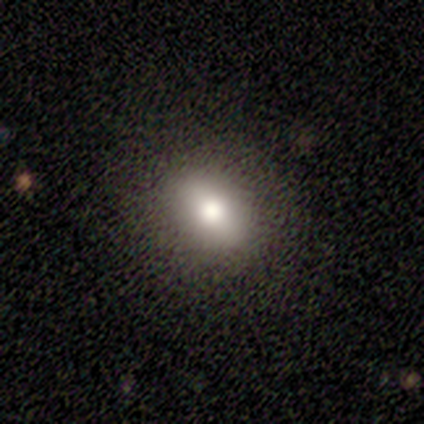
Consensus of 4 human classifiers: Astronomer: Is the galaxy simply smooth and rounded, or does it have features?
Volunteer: smooth — 75%.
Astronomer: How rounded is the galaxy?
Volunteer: in between — 100%.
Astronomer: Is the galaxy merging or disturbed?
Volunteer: none — 67%.